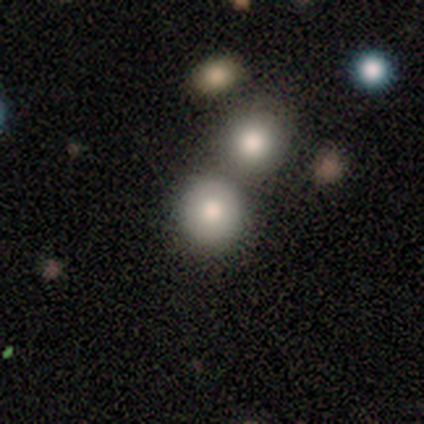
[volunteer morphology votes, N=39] type=smooth (74%); roundness=round (97%); merging=none (54%).